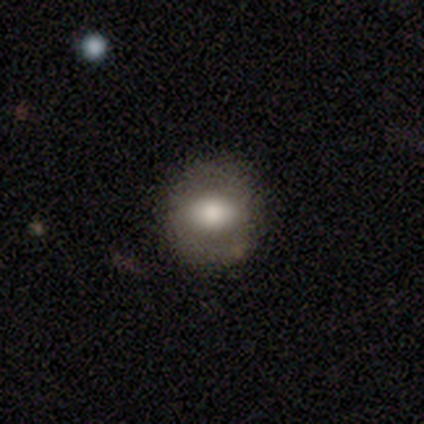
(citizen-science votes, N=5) Q: Smooth or featured?
A: smooth (100%)
Q: How rounded?
A: in between (80%); runner-up: round (20%)
Q: Merging?
A: none (80%); runner-up: minor disturbance (20%)